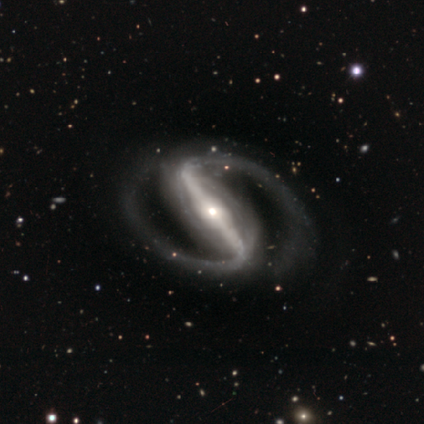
Smooth or featured? 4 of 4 (100%) said featured or disk. Edge-on disk? 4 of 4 (100%) said no. Bar? 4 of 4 (100%) said strong. Spiral arms? 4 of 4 (100%) said yes. Spiral winding? 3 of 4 (75%) said medium. Spiral arm count? 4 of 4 (100%) said 2. Bulge size? 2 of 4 (50%, tied with small) said moderate. Merging? 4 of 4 (100%) said none.